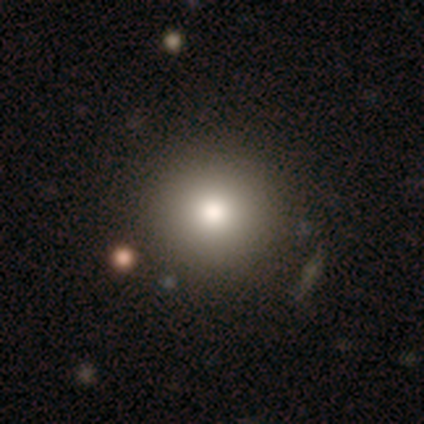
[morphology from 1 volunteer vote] A smooth galaxy with no disk features (100%) that is round (100%). Merging: none (100%).